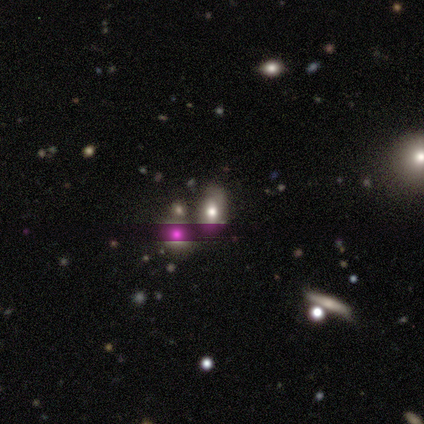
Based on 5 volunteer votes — Smooth or featured: smooth — 100%
How rounded: in between — 60% (round — 40%)
Merging: none — 60% (merger — 40%)